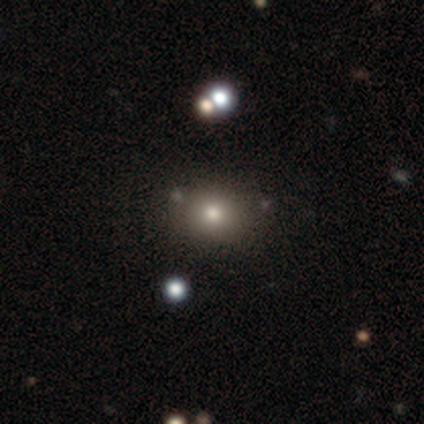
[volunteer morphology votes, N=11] Smooth or featured: smooth — 82% (featured or disk — 9%)
How rounded: round — 56% (in between — 44%)
Merging: none — 80% (minor disturbance — 10%)